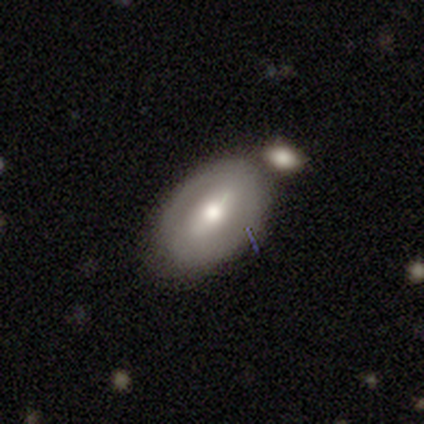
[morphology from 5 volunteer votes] Q: Smooth or featured?
A: smooth (60%); runner-up: featured or disk (20%)
Q: How rounded?
A: in between (100%)
Q: Merging?
A: none (50%); runner-up: minor disturbance (25%)